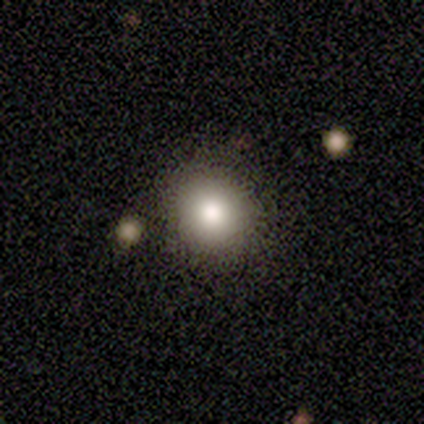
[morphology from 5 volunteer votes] Smooth or featured? 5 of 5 (100%) said smooth. How rounded? 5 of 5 (100%) said round. Merging? 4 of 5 (80%) said none.